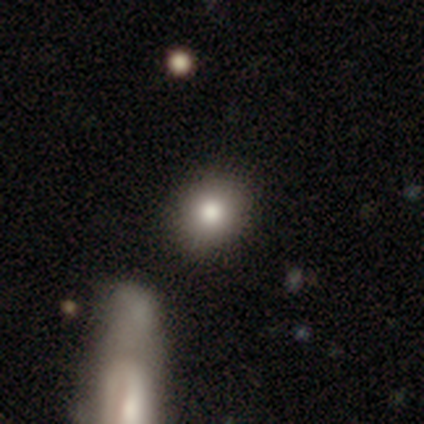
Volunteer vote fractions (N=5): Q: Smooth or featured?
A: smooth (80%); runner-up: star or artifact (20%)
Q: How rounded?
A: round (75%); runner-up: in between (25%)
Q: Merging?
A: none (100%)